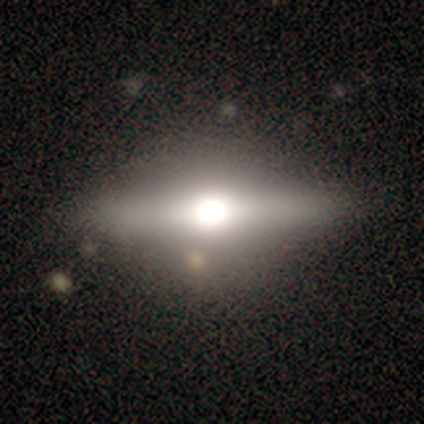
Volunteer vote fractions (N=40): This appears to be a featured or disk galaxy (65%) viewed edge-on (92%) with a rounded central bulge (96%). Merging: none (89%).